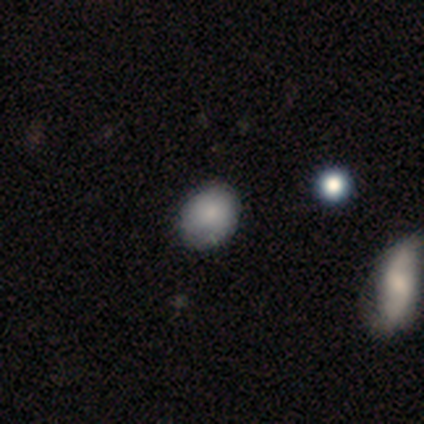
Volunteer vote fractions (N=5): A smooth galaxy with no disk features (60%) that is in between round and cigar-shaped (67%). Merging: none (80%).